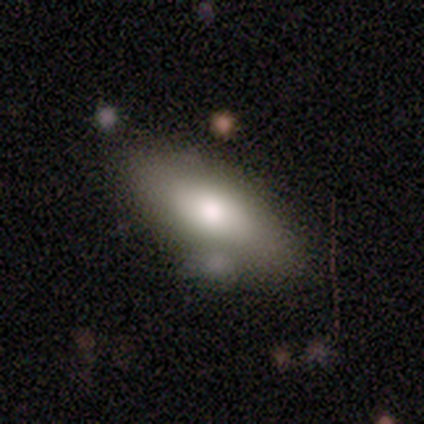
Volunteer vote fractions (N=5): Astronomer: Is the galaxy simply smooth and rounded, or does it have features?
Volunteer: smooth — 100%.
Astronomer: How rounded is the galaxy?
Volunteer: in between — 80%.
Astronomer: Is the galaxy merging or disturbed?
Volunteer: none — 80%.